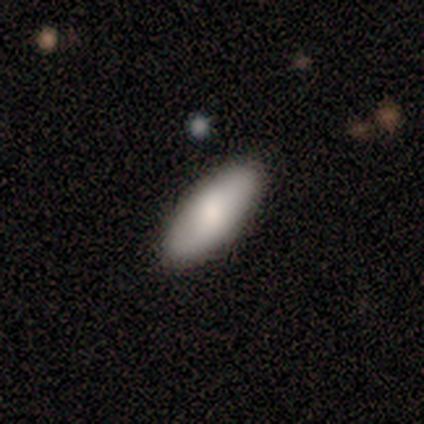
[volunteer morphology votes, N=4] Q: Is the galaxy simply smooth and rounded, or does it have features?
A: smooth — 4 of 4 (100%).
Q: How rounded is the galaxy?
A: in between — 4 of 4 (100%).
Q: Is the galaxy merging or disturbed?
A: none — 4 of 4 (100%).